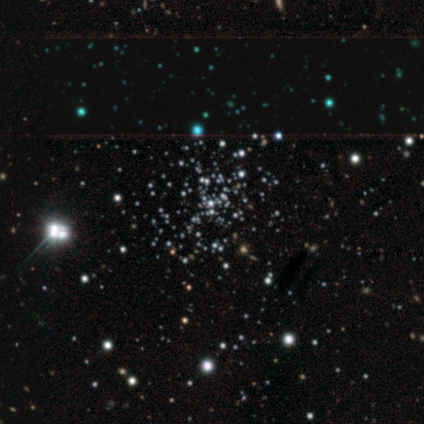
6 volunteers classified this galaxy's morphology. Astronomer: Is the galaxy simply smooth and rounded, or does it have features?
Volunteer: star or artifact — 83%.